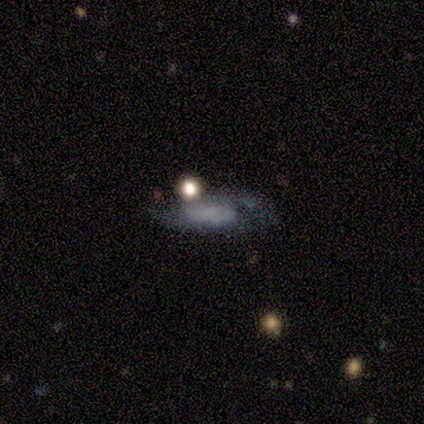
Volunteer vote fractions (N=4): Volunteers were most divided on "smooth or featured" (2-way tie): featured or disk: 50%, star or artifact: 50%, smooth: 0%; "bar" (2-way tie): weak: 50%, no: 50%, strong: 0%; "spiral arm count" (2-way tie): 2: 50%, can't tell: 50%, 1: 0%, 3: 0%, 4: 0%, more than 4: 0%; "merging" (2-way tie): none: 50%, minor disturbance: 50%, major disturbance: 0%, merger: 0%. More confident: edge-on disk — no (100%); spiral arms — yes (100%); spiral winding — medium (100%); bulge size — none (100%).